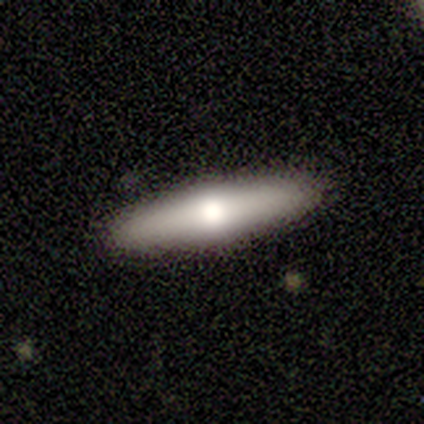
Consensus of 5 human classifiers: A smooth galaxy with no disk features (80%) that is in between round and cigar-shaped (50%, tied with cigar-shaped).

Vote fractions:
- Smooth or featured? smooth: 80% / featured or disk: 20% / star or artifact: 0%
- How rounded? in between: 50% (tied) / cigar-shaped: 50% (tied) / round: 0%
- Merging? none: 100% / minor disturbance: 0% / major disturbance: 0% / merger: 0%